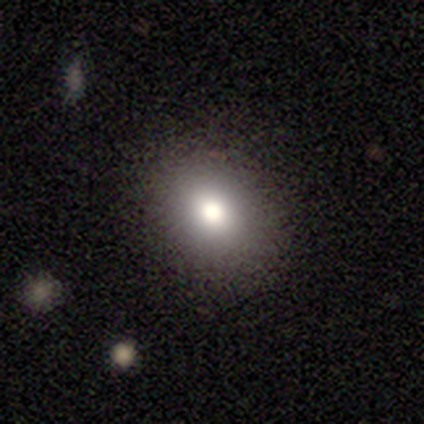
Overall: smooth (68%). How rounded: in between (58%; round 42%). Merging: none (90%).